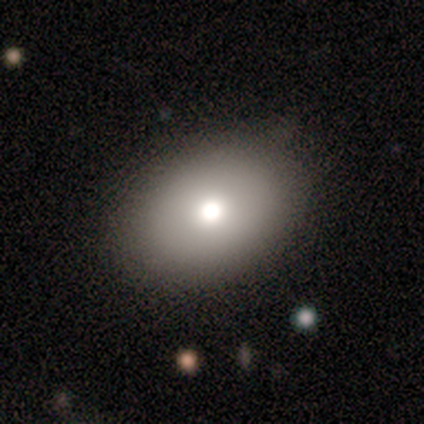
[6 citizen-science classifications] Smooth or featured? 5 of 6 (83%) said smooth. How rounded? 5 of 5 (100%) said in between. Merging? 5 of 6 (83%) said none.